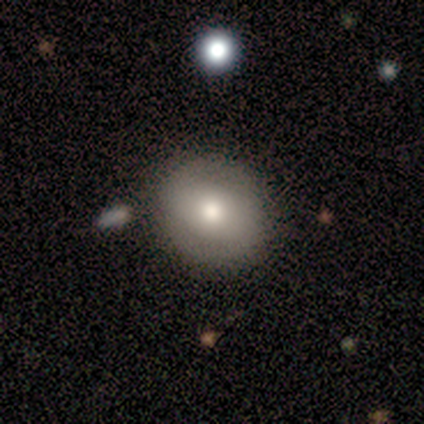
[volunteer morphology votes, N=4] Smooth or featured? featured or disk (75%)
Edge-on disk? no (100%)
Bar? weak (67%)
Spiral arms? no (67%)
Bulge size? large (33%, tied with moderate and small)
Merging? none (75%)